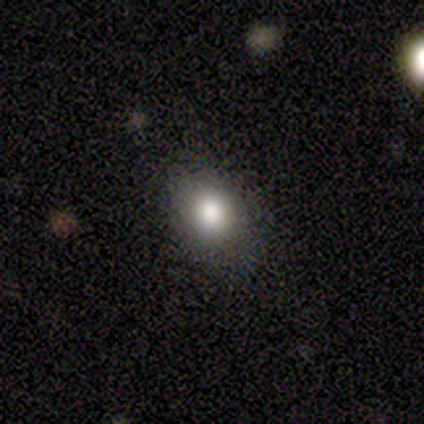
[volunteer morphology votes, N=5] Smooth or featured? smooth (100%)
How rounded? round (60%)
Merging? none (100%)